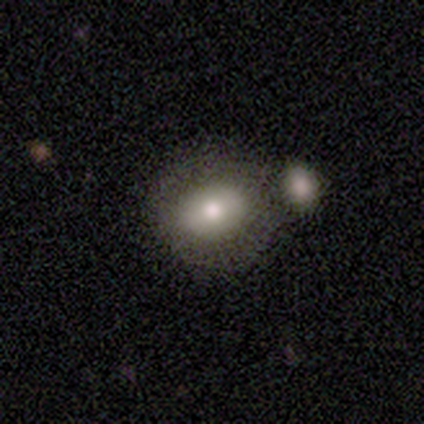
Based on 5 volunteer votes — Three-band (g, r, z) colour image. It shows a smooth galaxy with no disk features (80%) that is in between round and cigar-shaped (100%). Merging: none (80%).